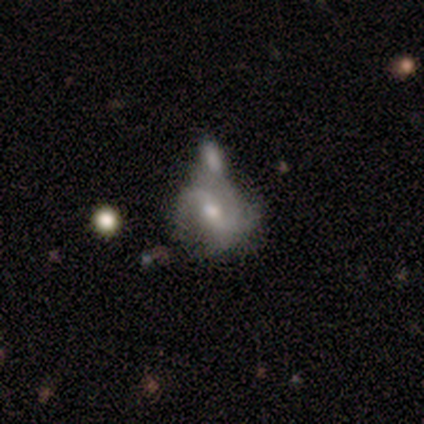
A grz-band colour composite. It shows a featured or disk galaxy (67%) with no bar (67%), 2 (88%) loose (88%) spiral arms (89%) and a moderate central bulge (67%). Merging: merger (54%).